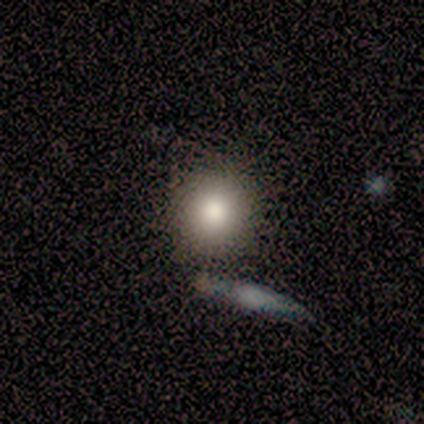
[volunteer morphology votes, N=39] Smooth or featured: smooth — 79% (featured or disk — 15%)
How rounded: round — 94% (in between — 6%)
Merging: none — 51% (merger — 16%)